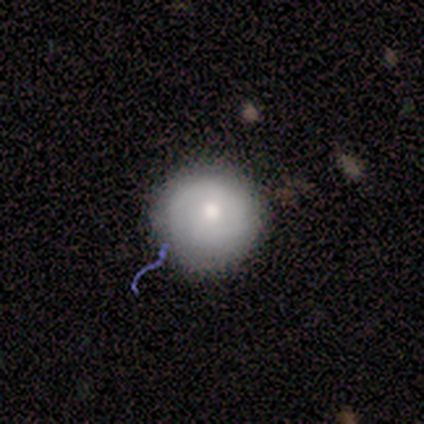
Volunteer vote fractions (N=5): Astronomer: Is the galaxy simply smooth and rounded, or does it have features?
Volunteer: smooth — 80%.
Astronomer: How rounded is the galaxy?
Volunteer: round — 100%.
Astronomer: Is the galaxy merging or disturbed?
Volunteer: none — 80%.